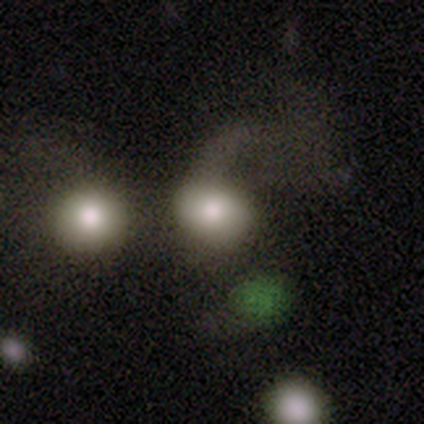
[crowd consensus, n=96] Smooth or featured: smooth — 68% (featured or disk — 21%)
How rounded: round — 63% (in between — 35%)
Merging: major disturbance — 35% (merger — 32%)